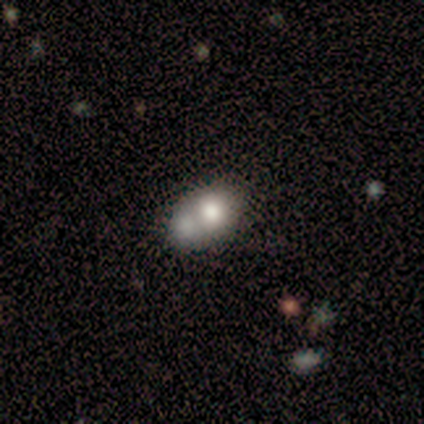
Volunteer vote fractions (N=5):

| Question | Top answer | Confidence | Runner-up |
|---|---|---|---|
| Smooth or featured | smooth | 60% | featured or disk (40%) |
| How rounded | round | 100% | — |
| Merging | none | 40% | tied: merger (40%) |